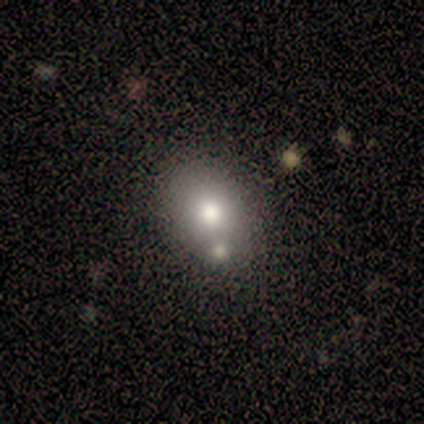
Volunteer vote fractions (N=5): smooth-or-featured: smooth: 100% | featured or disk: 0% | star or artifact: 0%
  how-rounded: round: 60% | in between: 40% | cigar-shaped: 0%
  merging: none: 80% | merger: 20% | minor disturbance: 0% | major disturbance: 0%